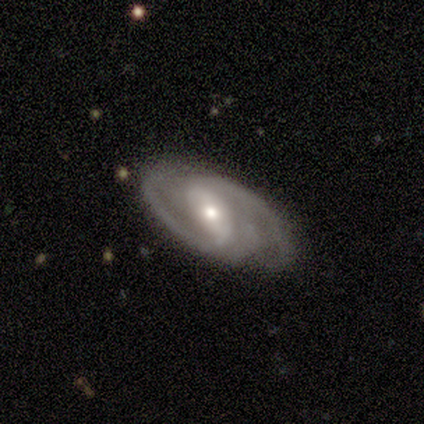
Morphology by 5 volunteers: featured or disk 40% (tied), star or artifact 40% (tied), smooth 20%. Down the decision tree: edge-on disk — no (100%); bar — strong (50%, tied with no); spiral arms — yes (100%); spiral arm count — 2 (100%); spiral winding — tight (50%, tied with medium); bulge size — moderate (50%, tied with small); merging — none (67%).